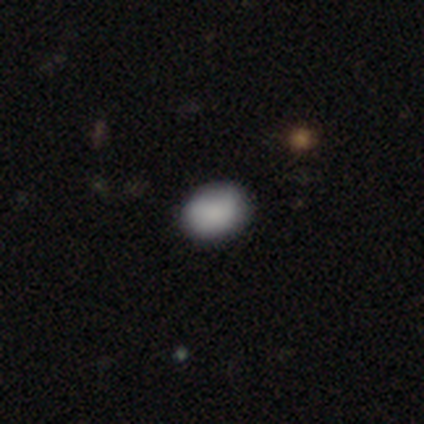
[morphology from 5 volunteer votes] This is clearly a smooth galaxy (80%). How rounded: possibly round (50%, tied with in between). Merging: likely none (75%).